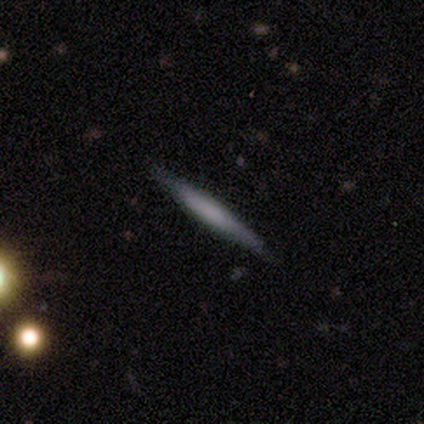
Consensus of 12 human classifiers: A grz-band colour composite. It shows a smooth galaxy with no disk features (67%) that is cigar-shaped (100%). Merging: none (92%).